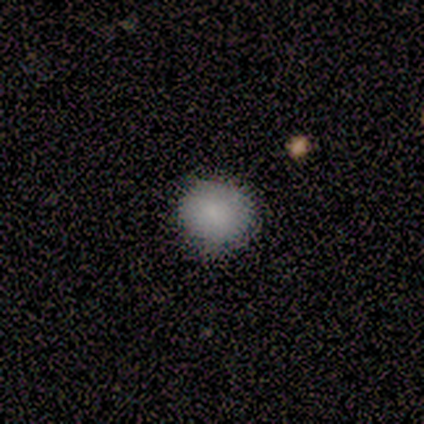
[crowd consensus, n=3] Volunteers were most divided on "merging": none: 67%, minor disturbance: 33%, major disturbance: 0%, merger: 0%. More confident: smooth or featured — smooth (100%); how rounded — round (100%).